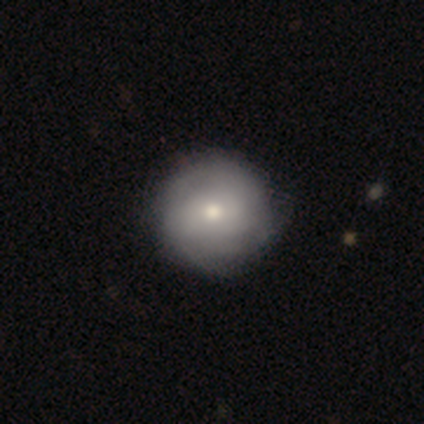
Smooth or featured? 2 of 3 (67%) said smooth. How rounded? 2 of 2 (100%) said round. Merging? 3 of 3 (100%) said none.